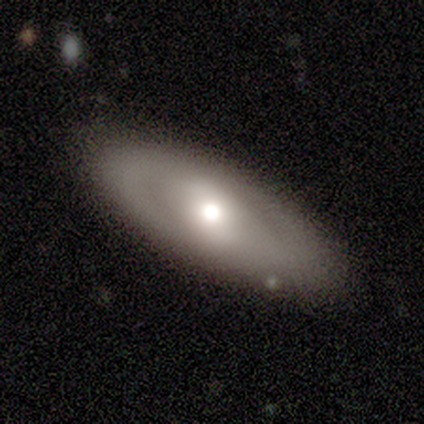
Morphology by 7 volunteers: smooth_or_featured: featured or disk (p=0.71) [alt: smooth p=0.29]
disk_edge_on: no (p=1.00)
bar: no (p=0.60) [alt: strong p=0.20]
has_spiral_arms: no (p=1.00)
bulge_size: small (p=0.60) [alt: large p=0.20]
merging: none (p=0.86) [alt: major disturbance p=0.14]